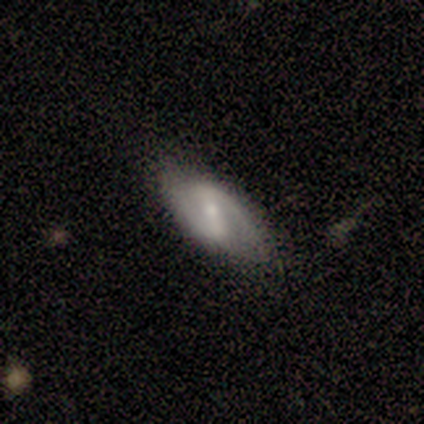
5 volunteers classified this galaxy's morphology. Smooth or featured: featured or disk — 80% (star or artifact — 20%)
Edge-on disk: no — 100%
Bar: weak — 75% (strong — 25%)
Spiral arms: yes — 100%
Spiral winding: medium — 50% (tied with loose — 50%)
Spiral arm count: 2 — 100%
Bulge size: small — 75% (moderate — 25%)
Merging: none — 50% (tied with minor disturbance — 50%)